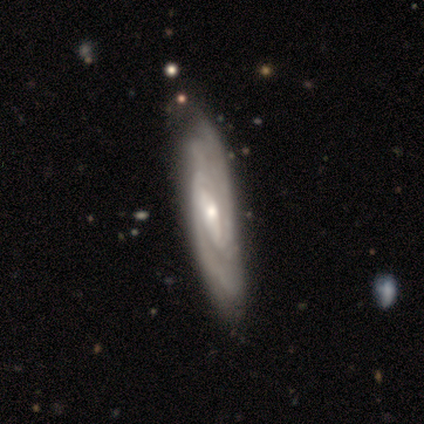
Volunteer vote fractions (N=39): Smooth or featured?
  - featured or disk: 95% *
  - star or artifact: 5%
  - smooth: 0%
Edge-on disk?
  - no: 81% *
  - yes: 19%
Bar?
  - no: 40% *
  - strong: 30%
  - weak: 30%
Spiral arms?
  - yes: 100% *
  - no: 0%
Spiral winding?
  - tight: 70% *
  - medium: 27%
  - loose: 3%
Spiral arm count?
  - 2: 50% *
  - can't tell: 33%
  - 4: 10%
  - 3: 7%
  - 1: 0%
  - more than 4: 0%
Bulge size?
  - small: 50% *
  - moderate: 47%
  - large: 3%
  - dominant: 0%
  - none: 0%
Merging?
  - none: 76% *
  - major disturbance: 3%
  - minor disturbance: 0%
  - merger: 0%